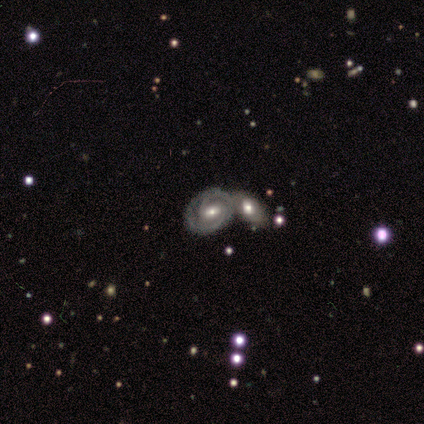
This appears to be a featured or disk galaxy (90%) with a weak bar (46%), 2 (79%) tight (63%) spiral arms (89%) and a moderate central bulge (66%). Merging: merger (70%).